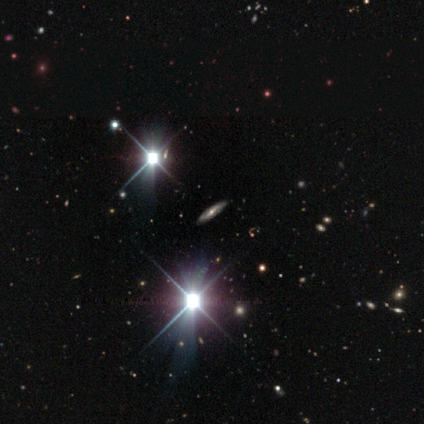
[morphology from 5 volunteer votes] Smooth or featured?
  - featured or disk: 60% *
  - smooth: 20%
  - star or artifact: 20%
Edge-on disk?
  - yes: 67% *
  - no: 33%
Edge-on bulge?
  - rounded: 100% *
  - boxy: 0%
  - none: 0%
Merging?
  - none: 100% *
  - minor disturbance: 0%
  - major disturbance: 0%
  - merger: 0%